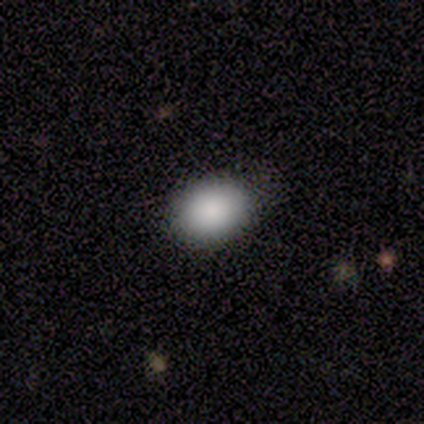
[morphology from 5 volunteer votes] A smooth galaxy with no disk features (80%) that is in between round and cigar-shaped (100%). Merging: none (75%).